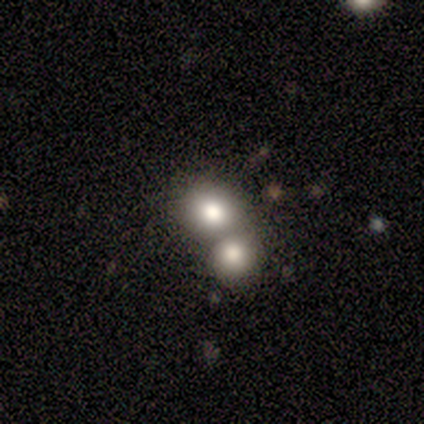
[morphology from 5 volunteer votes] Smooth or featured? 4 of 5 (80%) said smooth. How rounded? 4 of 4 (100%) said round. Merging? 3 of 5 (60%) said merger.